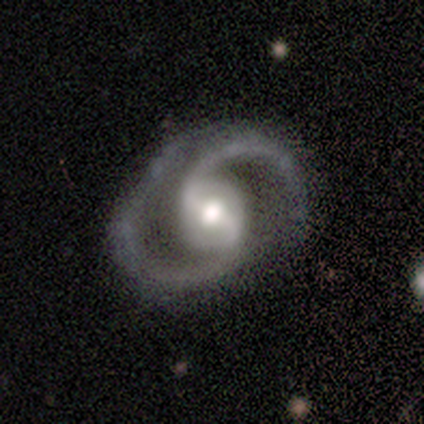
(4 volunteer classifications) smooth_or_featured: featured or disk (p=1.00)
disk_edge_on: no (p=1.00)
bar: weak (p=0.75) [alt: strong p=0.25]
has_spiral_arms: yes (p=1.00)
spiral_winding: medium (p=0.50) [tied with: loose p=0.50]
spiral_arm_count: 2 (p=1.00)
bulge_size: moderate (p=0.75) [alt: large p=0.25]
merging: none (p=0.50) [alt: minor disturbance p=0.25]